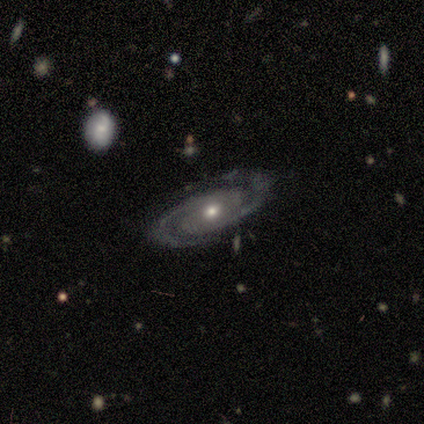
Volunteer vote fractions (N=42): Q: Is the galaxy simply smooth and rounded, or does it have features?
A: featured or disk — 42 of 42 (100%).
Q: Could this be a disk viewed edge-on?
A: no — 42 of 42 (100%).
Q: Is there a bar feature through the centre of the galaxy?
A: no — 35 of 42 (83%).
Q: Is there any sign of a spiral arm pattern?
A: yes — 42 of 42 (100%).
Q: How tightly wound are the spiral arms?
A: tight — 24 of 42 (57%).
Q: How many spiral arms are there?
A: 2 — 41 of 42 (98%).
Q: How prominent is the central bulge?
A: moderate — 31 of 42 (74%).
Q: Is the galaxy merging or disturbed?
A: none — 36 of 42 (86%).